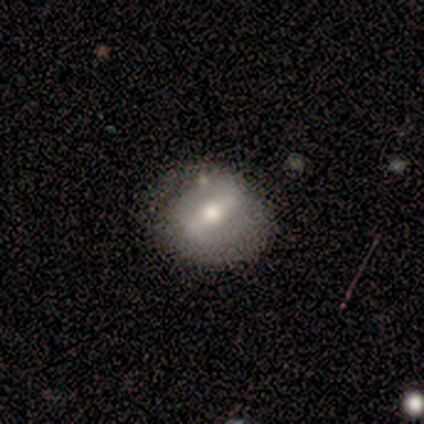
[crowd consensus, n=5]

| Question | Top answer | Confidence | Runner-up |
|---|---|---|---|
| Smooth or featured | smooth | 60% | featured or disk (40%) |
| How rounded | in between | 67% | round (33%) |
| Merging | none | 80% | major disturbance (20%) |